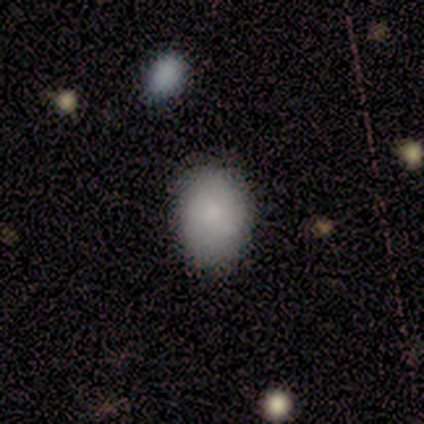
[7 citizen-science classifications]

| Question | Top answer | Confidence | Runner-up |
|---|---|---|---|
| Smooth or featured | smooth | 71% | featured or disk (14%) |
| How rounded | in between | 80% | round (20%) |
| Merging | none | 67% | minor disturbance (17%) |